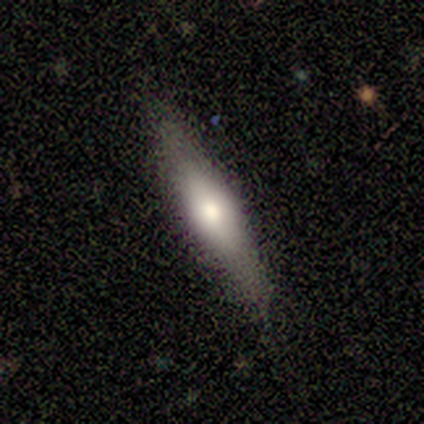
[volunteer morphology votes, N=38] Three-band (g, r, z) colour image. It shows a featured or disk galaxy (53%) viewed edge-on (85%) with a rounded central bulge (76%). Merging: none (86%).